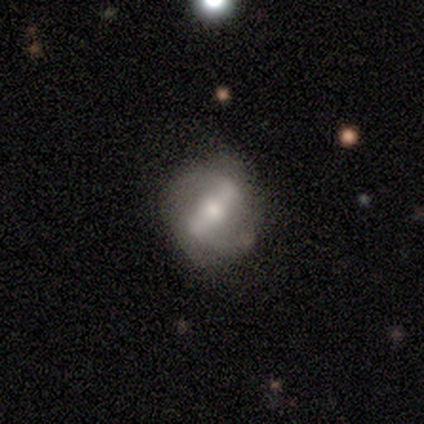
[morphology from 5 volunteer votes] Overall: smooth (40%, tied with featured or disk). How rounded: round (100%). Merging: none (100%).